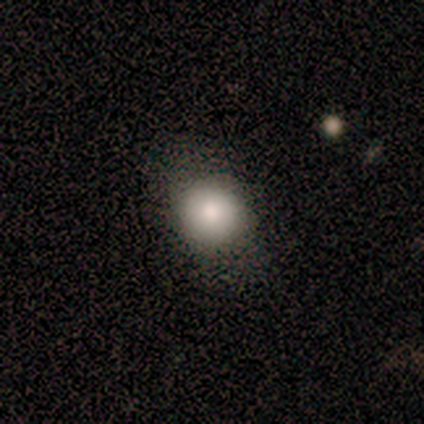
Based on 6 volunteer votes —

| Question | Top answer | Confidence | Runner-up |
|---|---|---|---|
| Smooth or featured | smooth | 67% | featured or disk (33%) |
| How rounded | round | 75% | in between (25%) |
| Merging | none | 67% | minor disturbance (17%) |